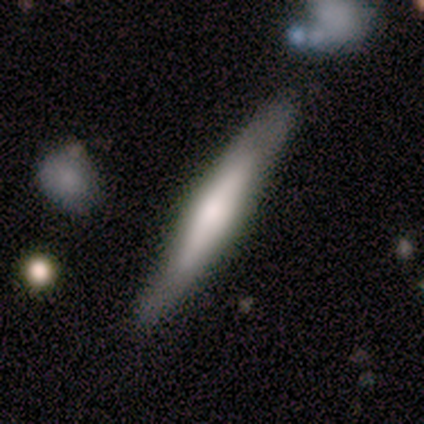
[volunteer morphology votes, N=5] Smooth or featured?
  - featured or disk: 60% *
  - smooth: 40%
  - star or artifact: 0%
Edge-on disk?
  - yes: 67% *
  - no: 33%
Edge-on bulge?
  - none: 50% * (tied)
  - rounded: 50% * (tied)
  - boxy: 0%
Merging?
  - none: 80% *
  - major disturbance: 20%
  - minor disturbance: 0%
  - merger: 0%